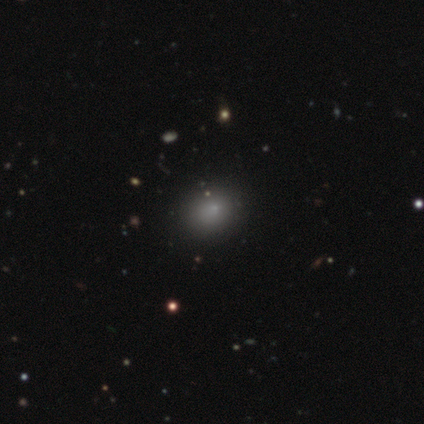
Smooth or featured: smooth — 100%
How rounded: round — 80% (in between — 20%)
Merging: none — 100%